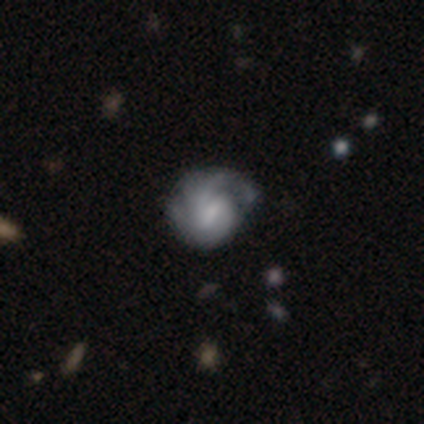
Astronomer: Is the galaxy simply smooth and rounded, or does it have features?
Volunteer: featured or disk — 72%.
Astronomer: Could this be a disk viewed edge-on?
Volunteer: no — 100%.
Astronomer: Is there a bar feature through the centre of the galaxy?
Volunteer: weak — 50% (runner-up: no, 35%).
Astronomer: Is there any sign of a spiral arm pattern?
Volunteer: yes — 81%.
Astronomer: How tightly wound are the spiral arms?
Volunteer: tight — 43% (runner-up: medium, 33%).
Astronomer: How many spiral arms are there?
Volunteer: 2 — 52% (runner-up: can't tell, 29%).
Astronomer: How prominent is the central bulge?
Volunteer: small — 50% (runner-up: moderate, 27%).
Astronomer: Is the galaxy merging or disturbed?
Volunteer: none — 53%.